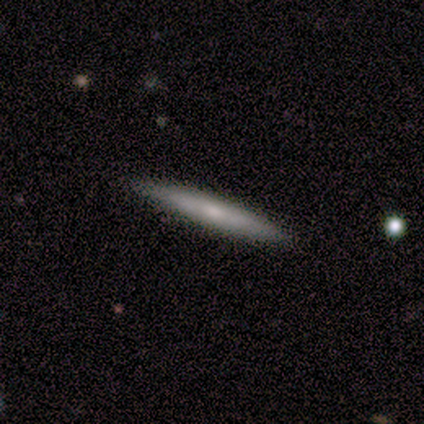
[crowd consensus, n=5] A smooth galaxy with no disk features (100%) that is cigar-shaped (100%). Merging: none (100%).